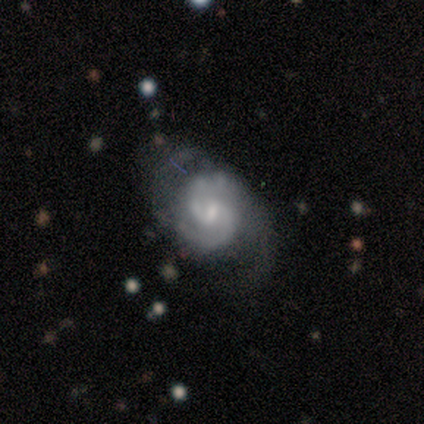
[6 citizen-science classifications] A featured or disk galaxy (100%) with a weak bar (83%), 2 (100%) medium (80%) spiral arms (83%) and a moderate central bulge (50%). Merging: none (83%).